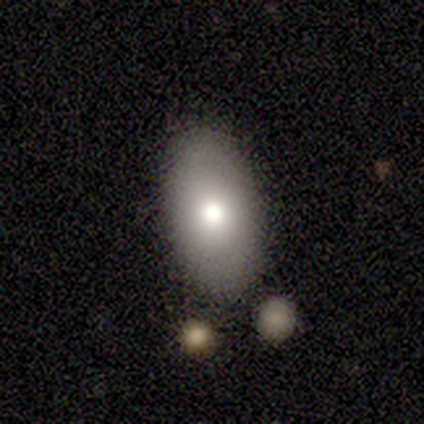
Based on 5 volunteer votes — smooth_or_featured: smooth (p=0.80) [alt: featured or disk p=0.20]
how_rounded: in between (p=0.75) [alt: round p=0.25]
merging: none (p=0.80) [alt: minor disturbance p=0.20]